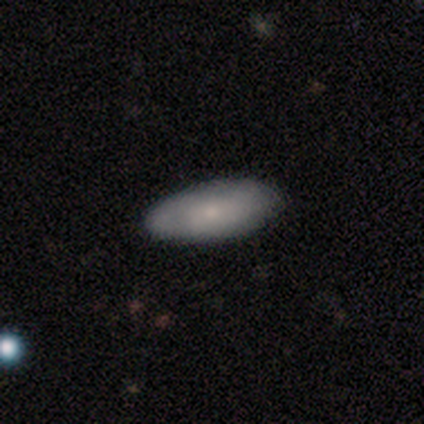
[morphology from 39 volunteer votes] smooth 69%, featured or disk 26%, star or artifact 5%. Down the decision tree: how rounded — in between (89%); merging — none (65%).